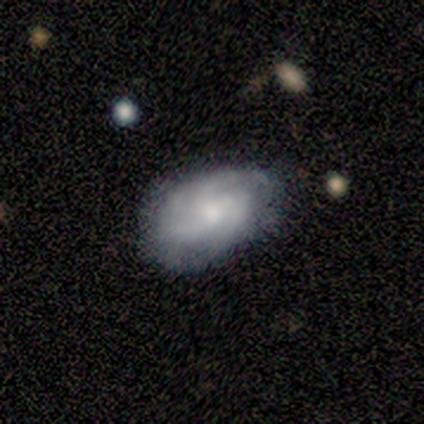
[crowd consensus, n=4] smooth-or-featured: featured or disk: 100% | smooth: 0% | star or artifact: 0%
  disk-edge-on: no: 75% | yes: 25%
    bar: no: 100% | strong: 0% | weak: 0%
    has-spiral-arms: yes: 100% | no: 0%
      spiral-winding: tight: 100% | medium: 0% | loose: 0%
      spiral-arm-count: 4: 67% | can't tell: 33% | 1: 0% | 2: 0% | 3: 0% | more than 4: 0%
    bulge-size: small: 67% | moderate: 33% | dominant: 0% | large: 0% | none: 0%
  merging: none: 100% | minor disturbance: 0% | major disturbance: 0% | merger: 0%